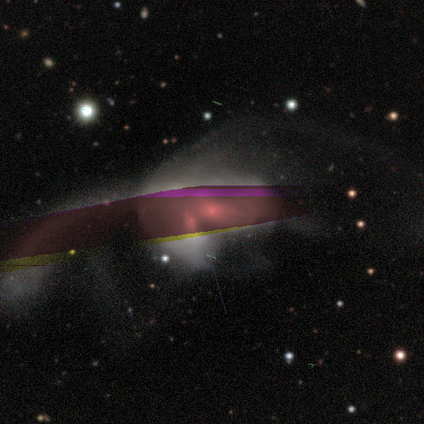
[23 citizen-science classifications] A featured or disk galaxy (52%) with no bar (75%), no spiral arms (75%) and a moderate central bulge (58%).

Vote fractions:
- Smooth or featured? featured or disk: 52% / star or artifact: 43% / smooth: 4%
- Edge-on disk? no: 100% / yes: 0%
- Bar? no: 75% / weak: 17% / strong: 8%
- Spiral arms? no: 75% / yes: 25%
- Bulge size? moderate: 58% / small: 17% / dominant: 8% / large: 8% / none: 8%
- Merging? merger: 85% / none: 8% / major disturbance: 8% / minor disturbance: 0%